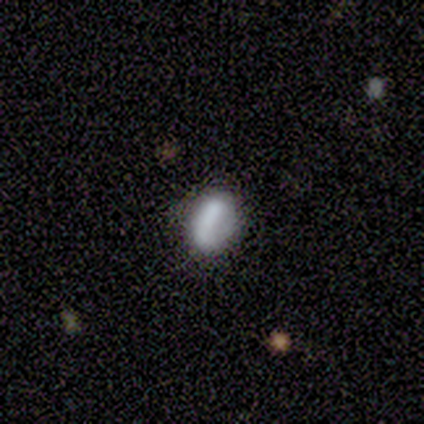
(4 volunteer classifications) Volunteers were most divided on "merging": none: 75%, minor disturbance: 25%, major disturbance: 0%, merger: 0%. More confident: smooth or featured — smooth (100%); how rounded — in between (100%).